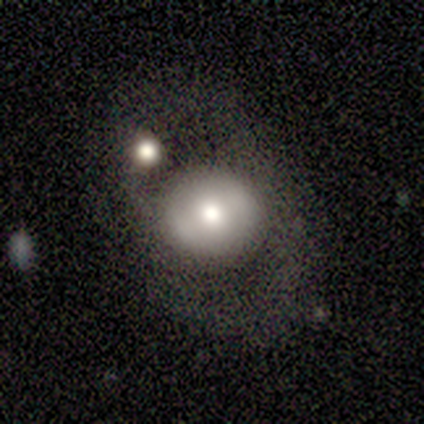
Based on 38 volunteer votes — Q: Smooth or featured?
A: smooth (55%); runner-up: featured or disk (37%)
Q: How rounded?
A: round (86%); runner-up: in between (14%)
Q: Merging?
A: none (57%); runner-up: minor disturbance (20%)